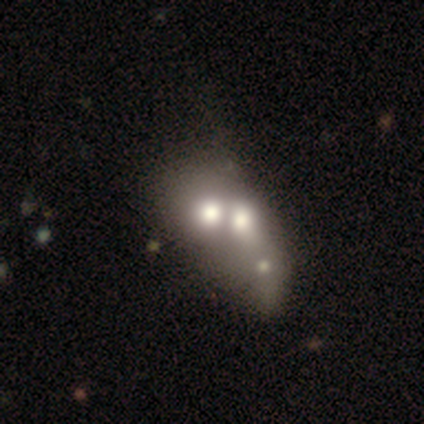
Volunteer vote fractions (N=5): A smooth galaxy with no disk features (60%) that is round (67%).

Vote fractions:
- Smooth or featured? smooth: 60% / featured or disk: 40% / star or artifact: 0%
- How rounded? round: 67% / in between: 33% / cigar-shaped: 0%
- Merging? merger: 100% / none: 0% / minor disturbance: 0% / major disturbance: 0%